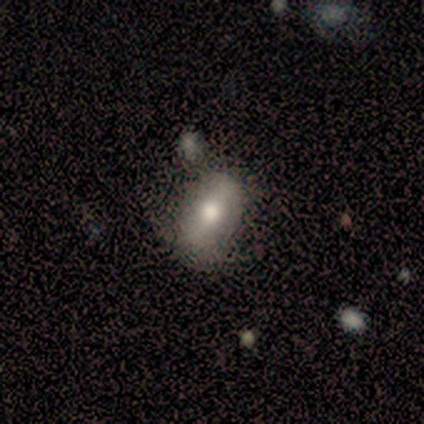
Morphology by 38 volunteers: This appears to be a smooth galaxy with no disk features (53%) that is in between round and cigar-shaped (85%). Merging: none (50%).